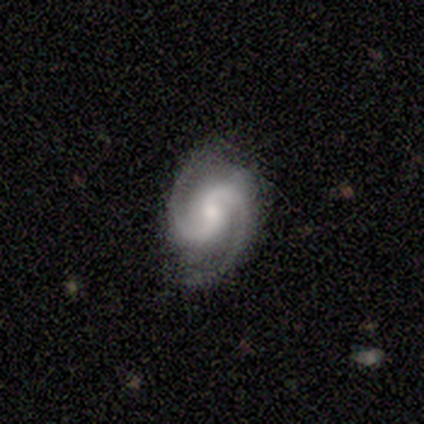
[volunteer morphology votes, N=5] smooth_or_featured: featured or disk (p=1.00)
disk_edge_on: no (p=1.00)
bar: no (p=0.60) [alt: weak p=0.40]
has_spiral_arms: yes (p=1.00)
spiral_winding: tight (p=0.40) [tied with: loose p=0.40]
spiral_arm_count: 2 (p=1.00)
bulge_size: small (p=0.60) [alt: moderate p=0.20]
merging: none (p=0.80) [alt: minor disturbance p=0.20]